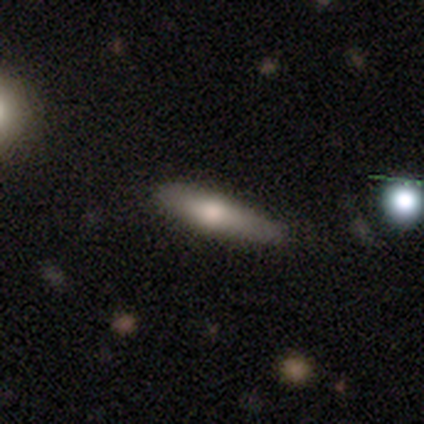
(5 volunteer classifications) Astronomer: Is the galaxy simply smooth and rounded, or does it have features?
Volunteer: smooth — 60% (runner-up: featured or disk, 40%).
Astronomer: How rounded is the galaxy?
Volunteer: cigar-shaped — 100%.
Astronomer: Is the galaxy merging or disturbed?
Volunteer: minor disturbance — 60% (runner-up: none, 40%).